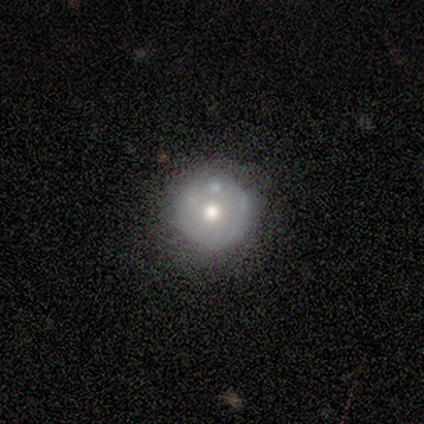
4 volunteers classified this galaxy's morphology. This is possibly a smooth galaxy (50%). How rounded: clearly round (100%). Merging: likely none (67%).